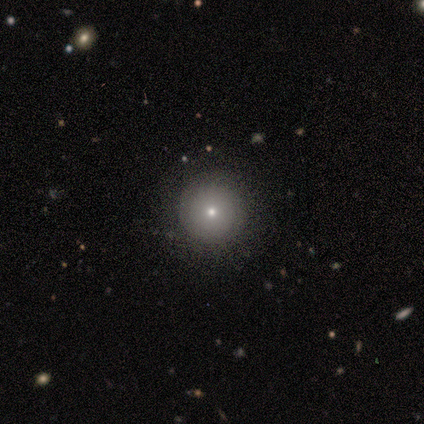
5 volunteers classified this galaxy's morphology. smooth_or_featured: smooth (p=0.80) [alt: star or artifact p=0.20]
how_rounded: round (p=1.00)
merging: none (p=0.75) [alt: minor disturbance p=0.25]